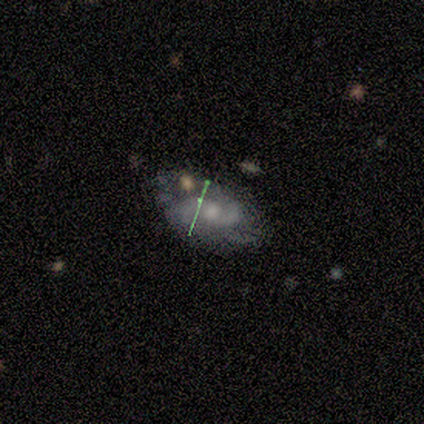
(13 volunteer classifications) Overall: featured or disk (54%; smooth 46%). Edge-on disk: no (86%). Bar: no (100%). Spiral arms: yes (100%). Spiral arm count: 2 (83%). Spiral winding: medium (50%, tied with loose). Bulge size: moderate (50%, tied with small). Merging: none (62%; major disturbance 23%).